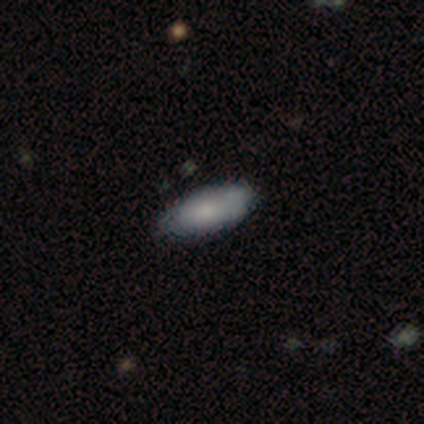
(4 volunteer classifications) This appears to be a smooth galaxy with no disk features (100%) that is in between round and cigar-shaped (100%). Merging: none (100%).